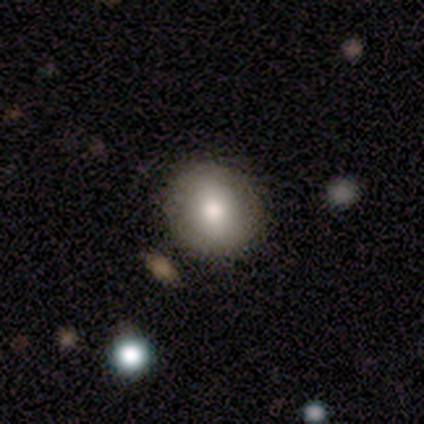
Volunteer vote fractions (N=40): Q: Smooth or featured?
A: smooth (88%); runner-up: featured or disk (8%)
Q: How rounded?
A: round (86%); runner-up: in between (14%)
Q: Merging?
A: none (68%); runner-up: merger (8%)